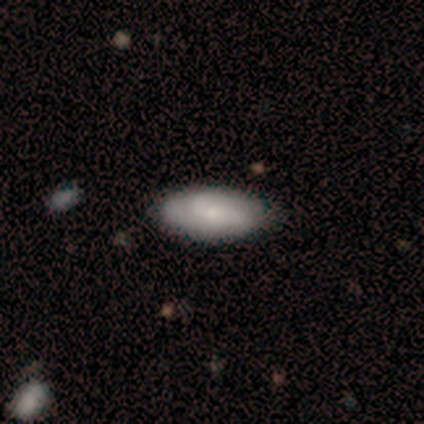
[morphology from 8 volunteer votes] A smooth galaxy with no disk features (75%) that is in between round and cigar-shaped (100%). Merging: none (88%).